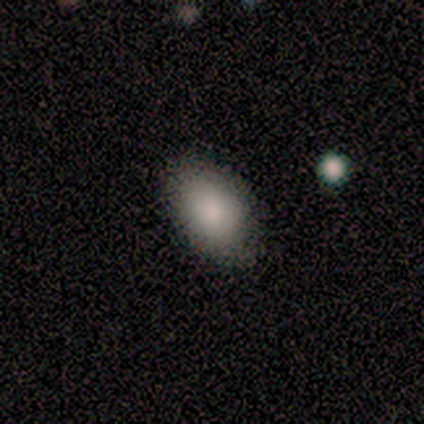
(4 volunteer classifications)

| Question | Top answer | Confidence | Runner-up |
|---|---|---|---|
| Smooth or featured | smooth | 100% | — |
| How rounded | in between | 75% | round (25%) |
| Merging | none | 100% | — |